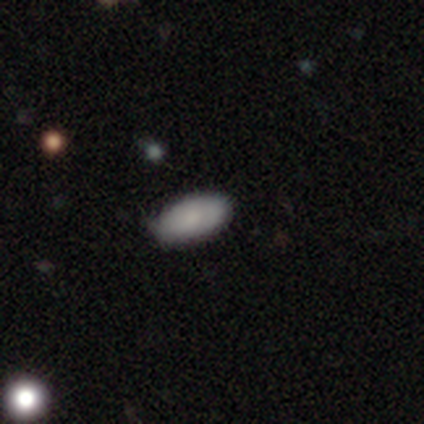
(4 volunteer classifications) Overall: smooth (100%). How rounded: in between (75%). Merging: none (100%).